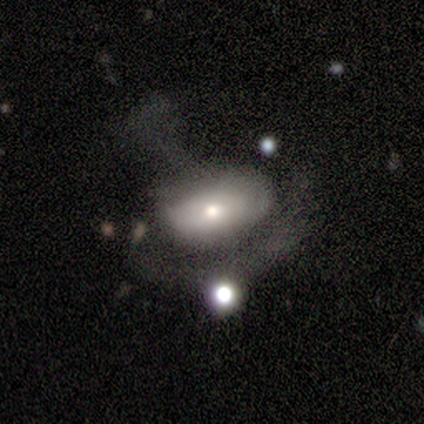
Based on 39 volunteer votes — Smooth or featured: smooth — 64% (featured or disk — 31%)
How rounded: in between — 84% (round — 16%)
Merging: major disturbance — 54% (none — 19%)